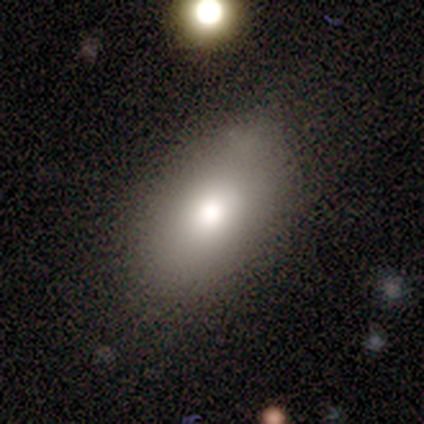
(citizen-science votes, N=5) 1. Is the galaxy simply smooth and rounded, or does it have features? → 60% smooth, 20% featured or disk, 20% star or artifact.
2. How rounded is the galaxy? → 67% in between, 33% round, 0% cigar-shaped.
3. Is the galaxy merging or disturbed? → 75% none, 25% minor disturbance, 0% major disturbance, 0% merger.